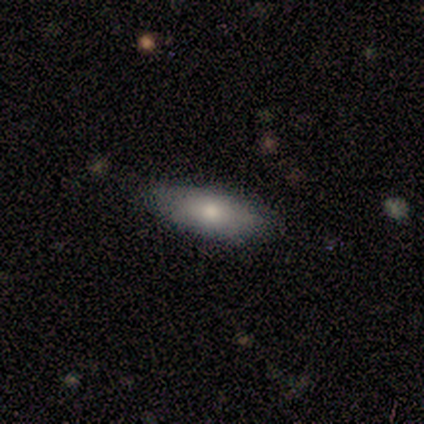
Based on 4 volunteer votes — Smooth or featured? 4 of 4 (100%) said smooth. How rounded? 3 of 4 (75%) said in between. Merging? 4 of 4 (100%) said none.